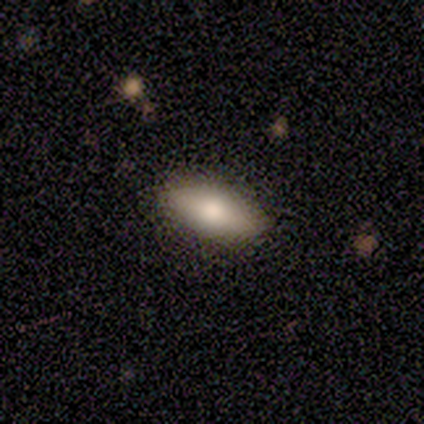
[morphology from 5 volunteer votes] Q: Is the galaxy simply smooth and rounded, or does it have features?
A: featured or disk — 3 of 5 (60%).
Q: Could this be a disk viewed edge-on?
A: no — 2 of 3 (67%).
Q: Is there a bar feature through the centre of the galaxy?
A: no — 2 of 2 (100%).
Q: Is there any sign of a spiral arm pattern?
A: no — 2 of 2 (100%).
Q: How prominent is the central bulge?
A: large — 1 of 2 (50%, tied with moderate).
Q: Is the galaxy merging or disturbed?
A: none — 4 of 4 (100%).